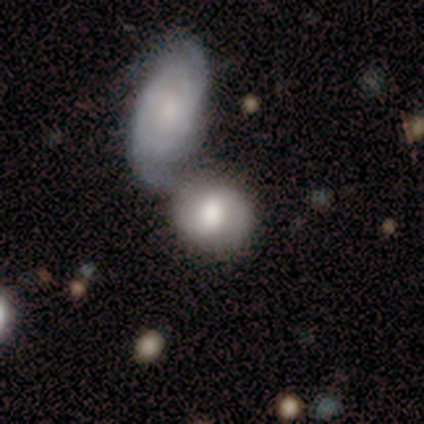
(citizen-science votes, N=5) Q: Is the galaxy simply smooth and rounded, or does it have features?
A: featured or disk — 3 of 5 (60%).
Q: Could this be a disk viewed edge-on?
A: no — 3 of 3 (100%).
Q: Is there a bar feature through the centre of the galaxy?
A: no — 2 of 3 (67%).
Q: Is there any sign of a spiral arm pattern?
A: yes — 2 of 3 (67%).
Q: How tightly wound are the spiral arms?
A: medium — 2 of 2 (100%).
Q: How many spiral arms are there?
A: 1 — 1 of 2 (50%, tied with 2).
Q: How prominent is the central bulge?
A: moderate — 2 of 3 (67%).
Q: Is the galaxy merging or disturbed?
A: merger — 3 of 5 (60%).